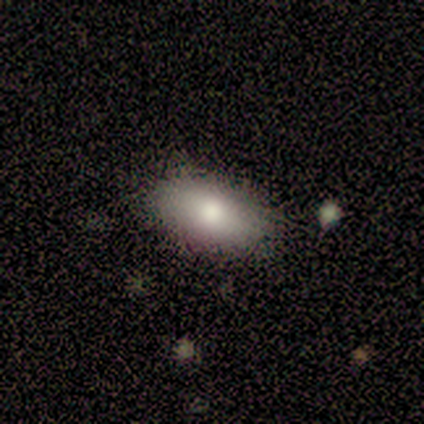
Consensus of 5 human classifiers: Smooth or featured?
  - smooth: 80% *
  - star or artifact: 20%
  - featured or disk: 0%
How rounded?
  - in between: 100% *
  - round: 0%
  - cigar-shaped: 0%
Merging?
  - none: 100% *
  - minor disturbance: 0%
  - major disturbance: 0%
  - merger: 0%